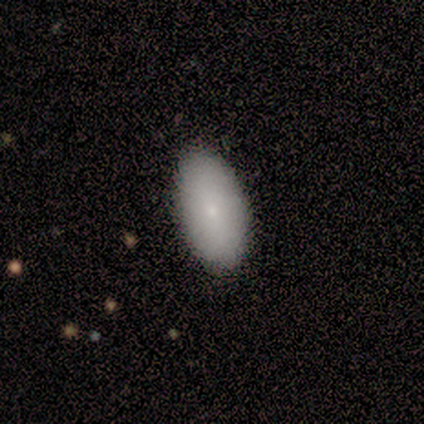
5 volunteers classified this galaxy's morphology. Smooth or featured? 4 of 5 (80%) said smooth. How rounded? 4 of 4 (100%) said in between. Merging? 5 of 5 (100%) said none.